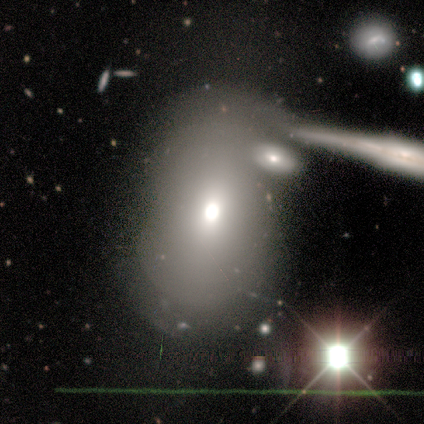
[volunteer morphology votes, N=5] smooth-or-featured: smooth: 60% | featured or disk: 20% | star or artifact: 20%
  how-rounded: in between: 67% | round: 33% | cigar-shaped: 0%
  merging: none: 25% (tied) | minor disturbance: 25% (tied) | major disturbance: 25% (tied) | merger: 25% (tied)